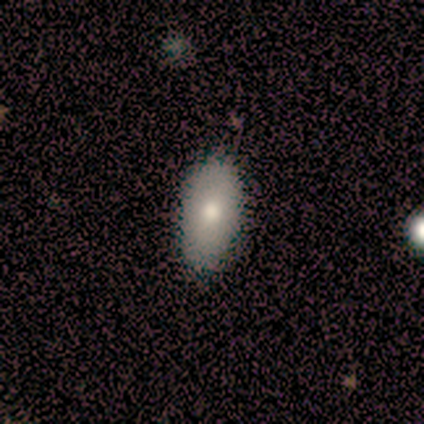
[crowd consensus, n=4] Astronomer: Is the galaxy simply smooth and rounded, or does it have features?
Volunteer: smooth — 100%.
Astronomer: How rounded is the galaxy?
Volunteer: in between — 100%.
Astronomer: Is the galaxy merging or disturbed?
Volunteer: none — 100%.